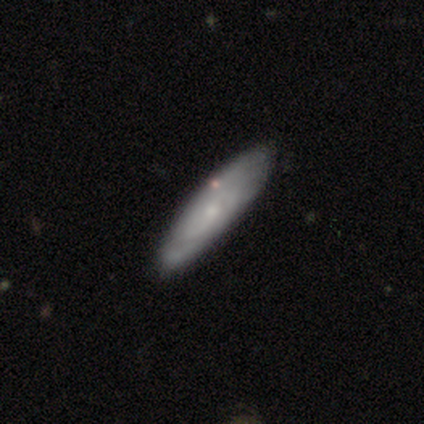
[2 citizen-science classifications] A smooth galaxy with no disk features (50%, tied with featured or disk) that is cigar-shaped (100%). Merging: none (50%, tied with minor disturbance).